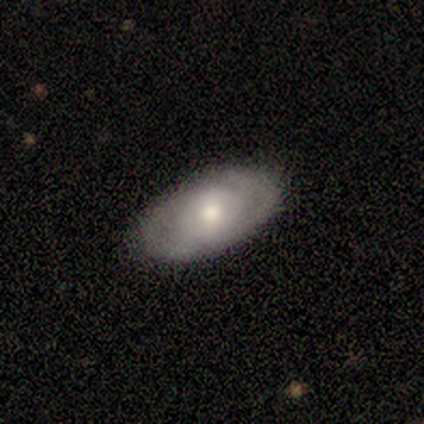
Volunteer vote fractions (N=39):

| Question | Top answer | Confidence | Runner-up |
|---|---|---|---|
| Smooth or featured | smooth | 51% | featured or disk (46%) |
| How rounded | in between | 90% | round (5%) |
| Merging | none | 82% | minor disturbance (16%) |